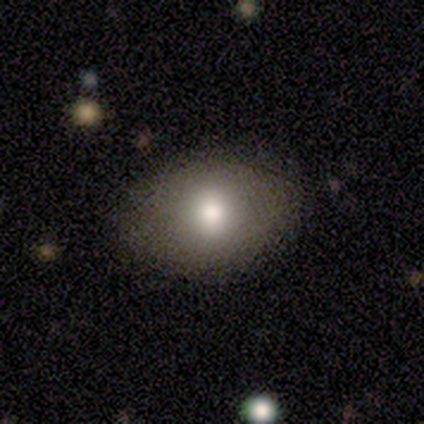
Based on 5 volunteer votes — Smooth or featured? 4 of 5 (80%) said smooth. How rounded? 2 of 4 (50%, tied with in between) said round. Merging? 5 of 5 (100%) said none.